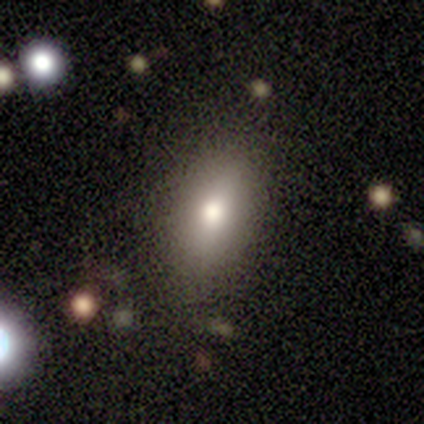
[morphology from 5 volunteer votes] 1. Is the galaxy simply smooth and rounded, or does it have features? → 100% smooth, 0% featured or disk, 0% star or artifact.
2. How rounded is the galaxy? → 80% in between, 20% round, 0% cigar-shaped.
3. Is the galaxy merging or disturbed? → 60% none, 20% minor disturbance, 20% major disturbance, 0% merger.